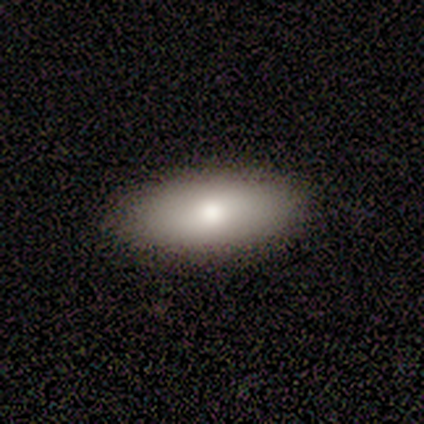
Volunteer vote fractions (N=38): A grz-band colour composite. It shows a smooth galaxy with no disk features (82%) that is in between round and cigar-shaped (87%). Merging: none (89%).